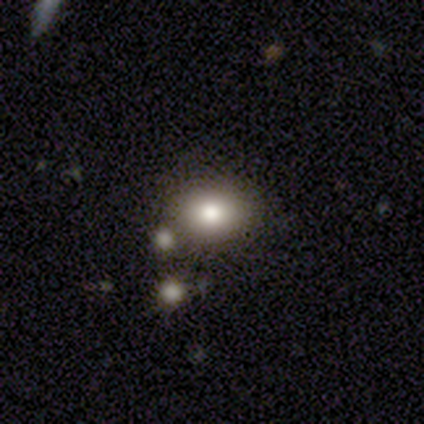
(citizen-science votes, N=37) smooth-or-featured: smooth: 65% | star or artifact: 19% | featured or disk: 16%
  how-rounded: in between: 54% | round: 46% | cigar-shaped: 0%
  merging: none: 80% | merger: 10% | minor disturbance: 7% | major disturbance: 3%